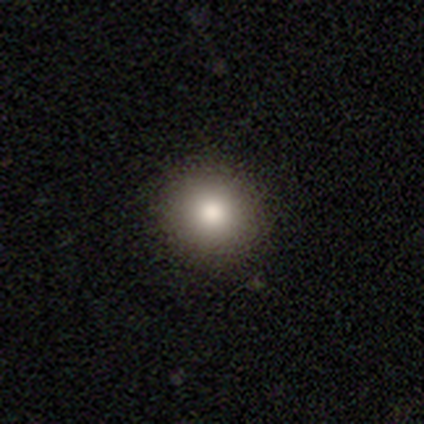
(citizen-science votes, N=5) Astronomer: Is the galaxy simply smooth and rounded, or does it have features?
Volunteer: smooth — 100%.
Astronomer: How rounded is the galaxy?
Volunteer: round — 100%.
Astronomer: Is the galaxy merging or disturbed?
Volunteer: none — 80%.